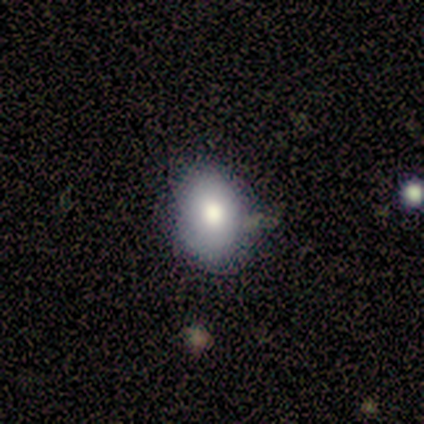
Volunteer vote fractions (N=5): A smooth galaxy with no disk features (100%) that is round (60%).

Vote fractions:
- Smooth or featured? smooth: 100% / featured or disk: 0% / star or artifact: 0%
- How rounded? round: 60% / in between: 40% / cigar-shaped: 0%
- Merging? none: 100% / minor disturbance: 0% / major disturbance: 0% / merger: 0%